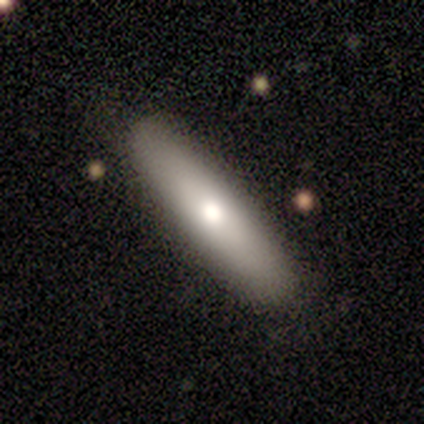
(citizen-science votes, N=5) Overall: smooth (80%). How rounded: cigar-shaped (75%). Merging: none (100%).